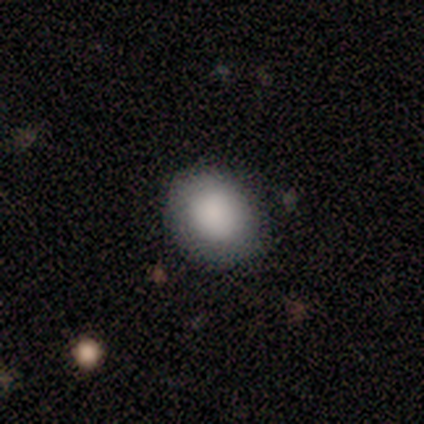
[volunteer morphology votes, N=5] A smooth galaxy with no disk features (100%) that is round (60%). Merging: none (100%).